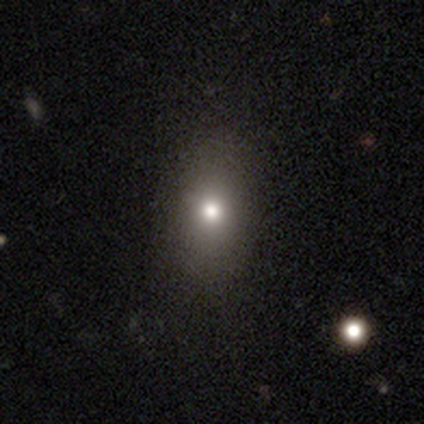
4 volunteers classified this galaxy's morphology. Overall: smooth (100%). How rounded: in between (75%). Merging: none (100%).